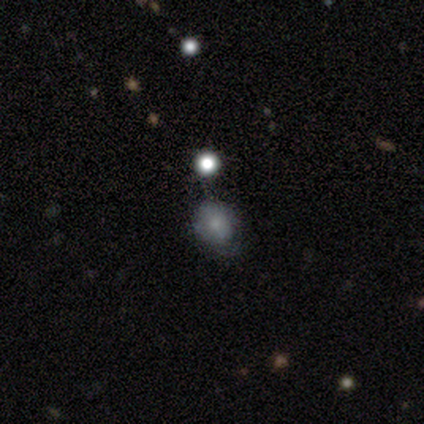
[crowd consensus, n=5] smooth-or-featured: smooth: 100% | featured or disk: 0% | star or artifact: 0%
  how-rounded: round: 80% | in between: 20% | cigar-shaped: 0%
  merging: none: 100% | minor disturbance: 0% | major disturbance: 0% | merger: 0%